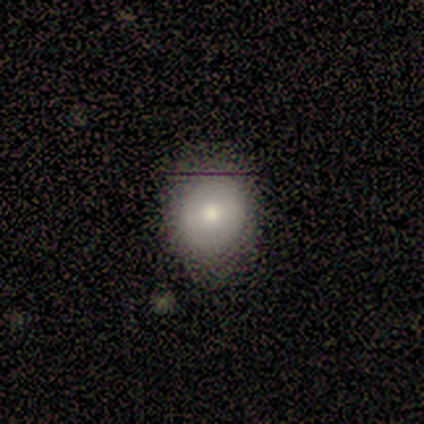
This is marginally a smooth galaxy (40%, tied with star or artifact). How rounded: clearly round (100%). Merging: likely none (67%).